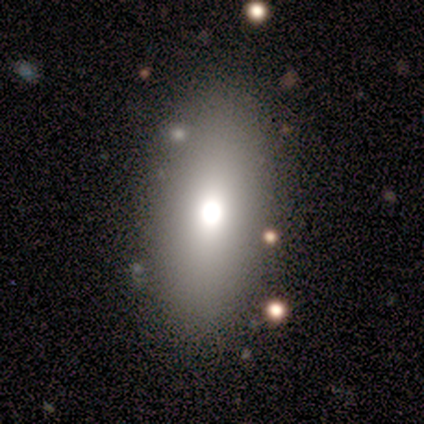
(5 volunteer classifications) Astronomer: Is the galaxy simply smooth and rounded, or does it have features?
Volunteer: smooth — 80%.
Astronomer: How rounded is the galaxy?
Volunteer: in between — 75%.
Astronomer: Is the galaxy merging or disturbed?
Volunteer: none — 100%.